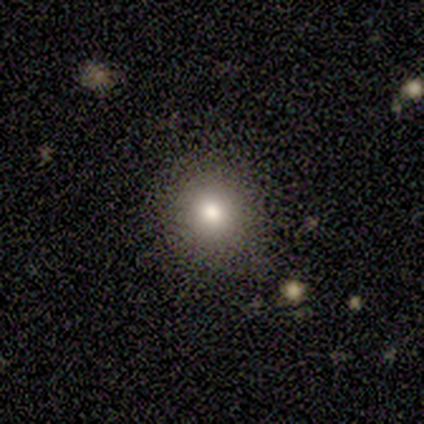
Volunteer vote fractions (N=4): smooth 75%, featured or disk 25%, star or artifact 0%. Down the decision tree: how rounded — round (33%, tied with in between and cigar-shaped); merging — none (75%).